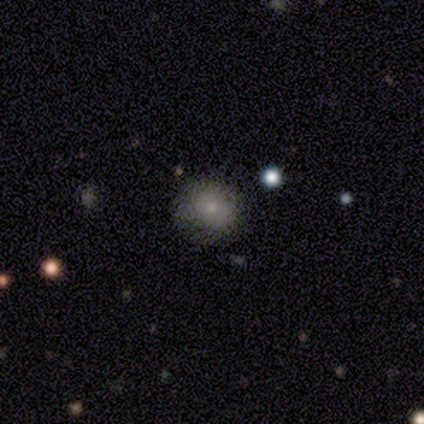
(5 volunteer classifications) smooth 80%, star or artifact 20%, featured or disk 0%. Down the decision tree: how rounded — in between (75%); merging — none (75%).